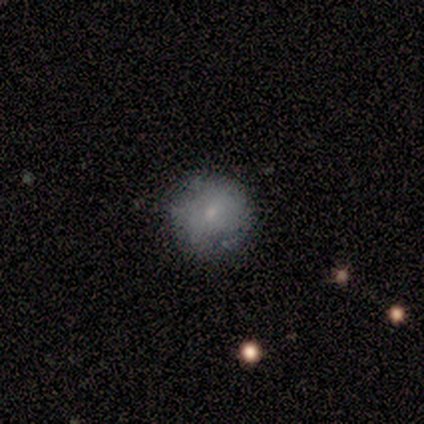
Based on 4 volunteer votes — Q: Smooth or featured?
A: smooth (75%); runner-up: featured or disk (25%)
Q: How rounded?
A: round (100%)
Q: Merging?
A: none (75%); runner-up: minor disturbance (25%)